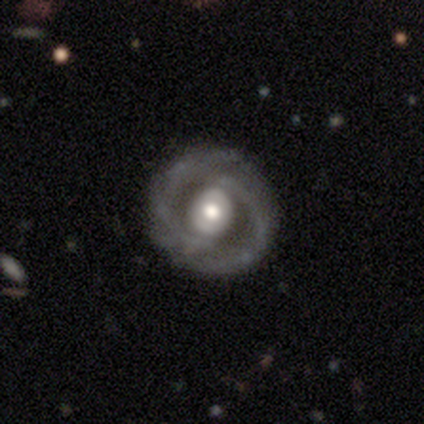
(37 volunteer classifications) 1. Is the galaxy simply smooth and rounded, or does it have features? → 78% featured or disk, 22% smooth, 0% star or artifact.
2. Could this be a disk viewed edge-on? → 100% no, 0% yes.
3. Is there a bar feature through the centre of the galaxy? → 45% no, 38% strong, 17% weak.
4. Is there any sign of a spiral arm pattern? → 72% yes, 28% no.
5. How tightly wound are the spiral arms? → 62% tight, 19% medium, 19% loose.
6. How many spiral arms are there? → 57% 2, 19% can't tell, 14% 3, 5% 4, 5% more than 4, 0% 1.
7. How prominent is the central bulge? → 48% moderate, 38% large, 10% small, 3% dominant, 0% none.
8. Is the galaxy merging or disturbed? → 81% none, 11% major disturbance, 8% minor disturbance, 0% merger.